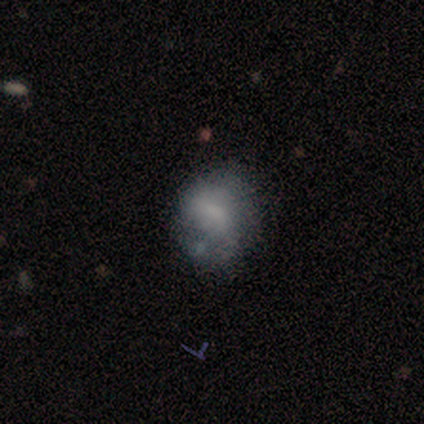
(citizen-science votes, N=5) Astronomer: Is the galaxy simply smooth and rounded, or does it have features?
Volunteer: smooth — 100%.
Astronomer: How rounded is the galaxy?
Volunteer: round — 80%.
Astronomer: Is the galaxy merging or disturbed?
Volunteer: none — 40%, tied with minor disturbance at 40%.